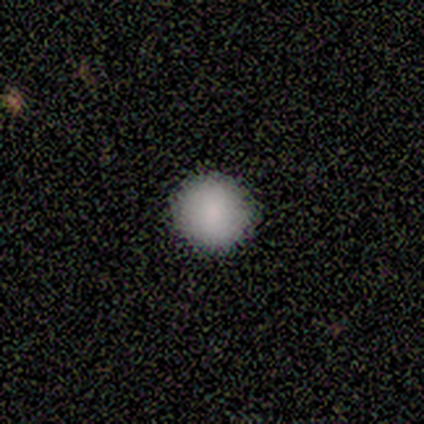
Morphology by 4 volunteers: smooth_or_featured: smooth (p=0.75) [alt: featured or disk p=0.25]
how_rounded: round (p=1.00)
merging: none (p=1.00)